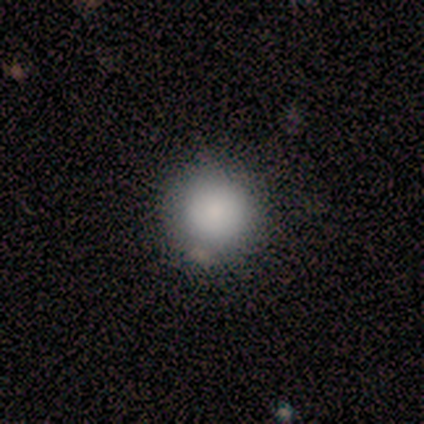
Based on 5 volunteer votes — This is clearly a smooth galaxy (100%). How rounded: clearly round (80%). Merging: clearly none (80%).